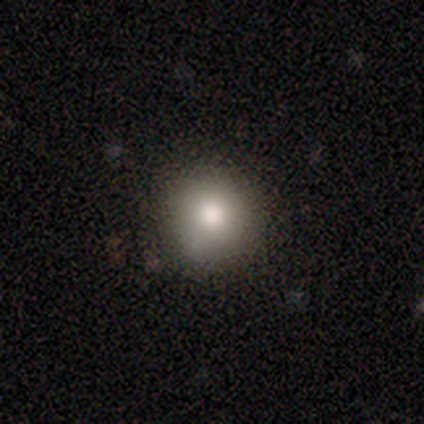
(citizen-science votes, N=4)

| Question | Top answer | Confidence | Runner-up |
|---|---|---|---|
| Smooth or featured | smooth | 100% | — |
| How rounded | round | 75% | in between (25%) |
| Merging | none | 50% | tied: minor disturbance (50%) |